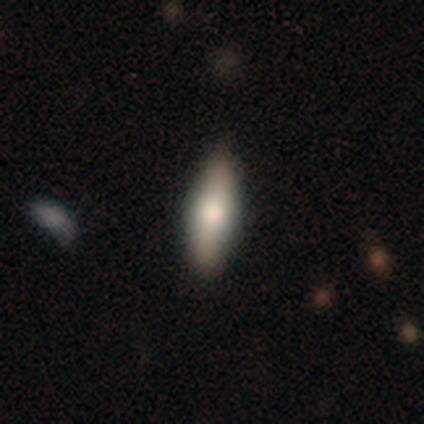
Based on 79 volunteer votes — A smooth galaxy with no disk features (75%) that is in between round and cigar-shaped (59%).

Vote fractions:
- Smooth or featured? smooth: 75% / featured or disk: 20% / star or artifact: 5%
- How rounded? in between: 59% / cigar-shaped: 41% / round: 0%
- Merging? none: 47% / minor disturbance: 4% / merger: 1% / major disturbance: 0%